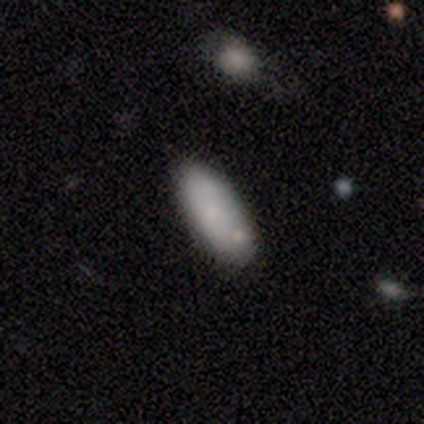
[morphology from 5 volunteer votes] A smooth galaxy with no disk features (100%) that is in between round and cigar-shaped (60%). Merging: none (60%).